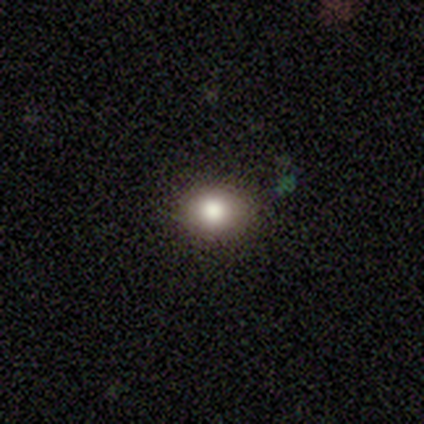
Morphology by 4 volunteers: This is likely a smooth galaxy (75%). How rounded: likely round (67%). Merging: likely none (67%).